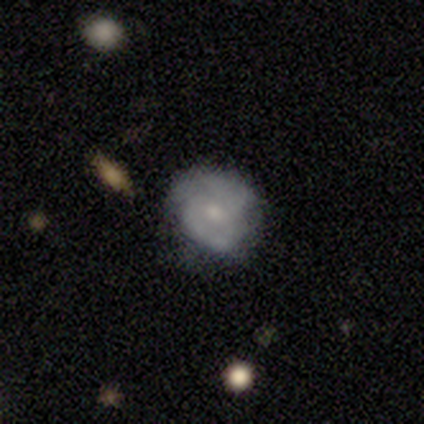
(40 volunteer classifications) A smooth galaxy with no disk features (50%) that is round (70%).

Vote fractions:
- Smooth or featured? smooth: 50% / featured or disk: 45% / star or artifact: 5%
- How rounded? round: 70% / in between: 30% / cigar-shaped: 0%
- Merging? none: 50% / minor disturbance: 34% / major disturbance: 16% / merger: 0%